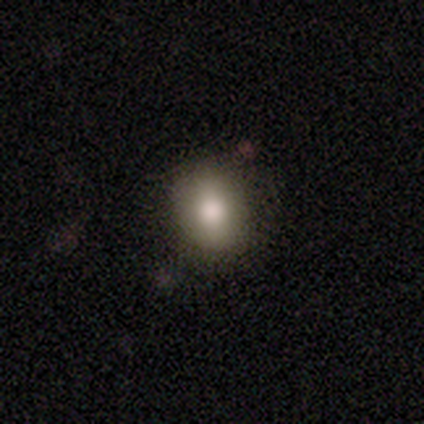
smooth 83%, star or artifact 17%, featured or disk 0%. Down the decision tree: how rounded — in between (80%); merging — none (100%).